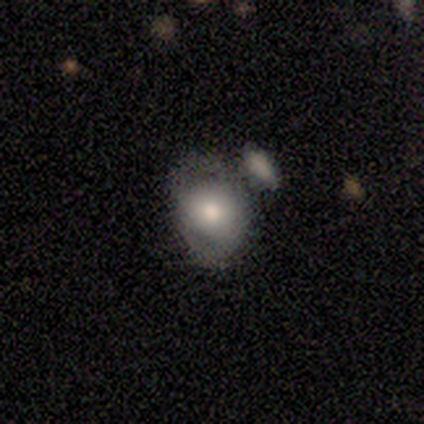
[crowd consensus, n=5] Q: Smooth or featured?
A: smooth (60%); runner-up: featured or disk (20%)
Q: How rounded?
A: in between (67%); runner-up: round (33%)
Q: Merging?
A: merger (50%); runner-up: none (25%)